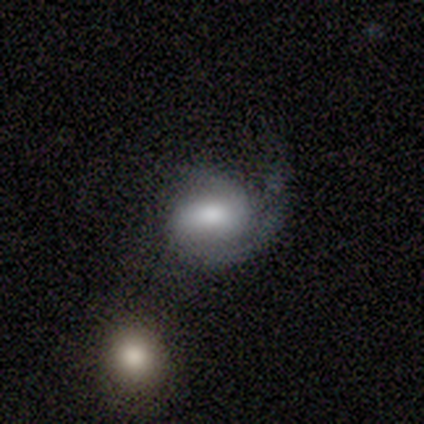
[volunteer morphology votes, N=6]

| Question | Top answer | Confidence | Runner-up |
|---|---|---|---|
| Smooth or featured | featured or disk | 100% | — |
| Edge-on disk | no | 100% | — |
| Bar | weak | 50% | no (33%) |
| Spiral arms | yes | 100% | — |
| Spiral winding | medium | 50% | loose (33%) |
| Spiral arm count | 2 | 83% | 1 (17%) |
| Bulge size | moderate | 50% | large (33%) |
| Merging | none | 83% | major disturbance (17%) |